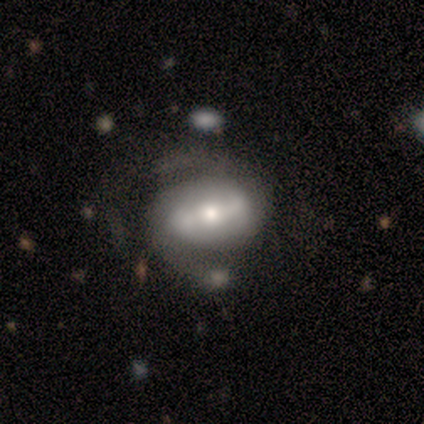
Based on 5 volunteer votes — Overall: featured or disk (100%). Edge-on disk: no (80%). Bar: strong (50%; weak 25%). Spiral arms: yes (100%). Spiral arm count: 2 (100%). Spiral winding: loose (100%). Bulge size: small (50%; large 25%). Merging: none (40%; minor disturbance 20%).